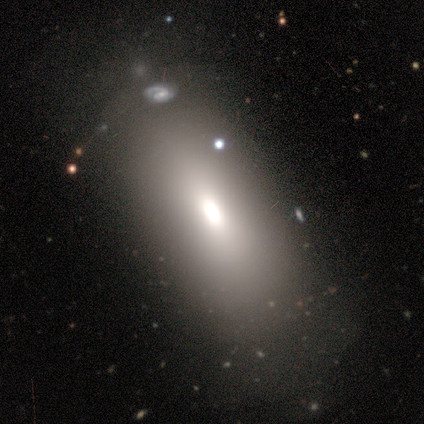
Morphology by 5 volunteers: This is clearly a smooth galaxy (80%). How rounded: clearly in between (100%). Merging: clearly none (100%).